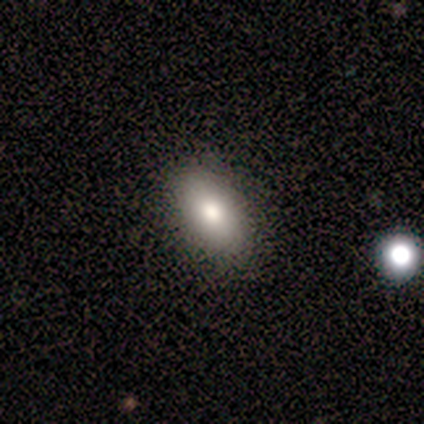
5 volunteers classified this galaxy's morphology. This appears to be a smooth galaxy with no disk features (80%) that is in between round and cigar-shaped (100%). Merging: none (100%).